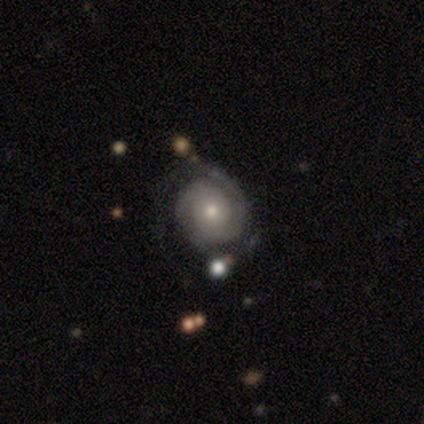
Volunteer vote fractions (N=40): Overall: featured or disk (80%). Edge-on disk: no (94%). Bar: no (80%). Spiral arms: yes (87%). Spiral arm count: 2 (54%; 1 23%). Spiral winding: tight (77%). Bulge size: moderate (47%; small 43%). Merging: none (62%; minor disturbance 24%).